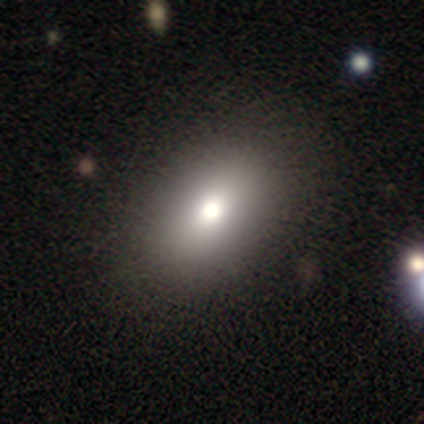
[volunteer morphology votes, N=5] smooth 80%, featured or disk 20%, star or artifact 0%. Down the decision tree: how rounded — in between (75%); merging — none (60%).